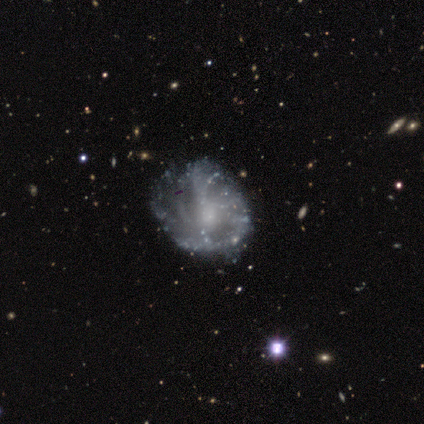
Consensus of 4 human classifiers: This is possibly a featured or disk galaxy (50%, tied with star or artifact). It is clearly not viewed edge-on (100%). Bar: clearly no (100%). Spiral arm pattern: clearly yes (100%). Spiral arm count: clearly can't tell (100%). Spiral winding: possibly tight (50%, tied with medium). Central bulge: possibly moderate (50%, tied with none). Merging: clearly none (100%).